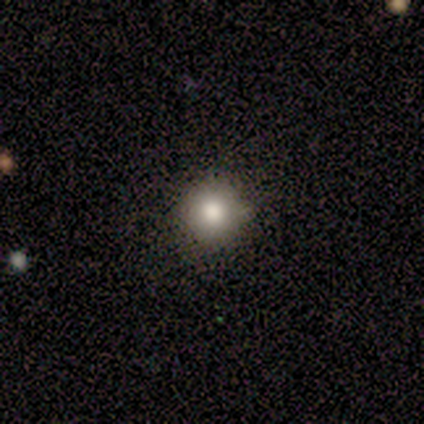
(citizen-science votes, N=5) Morphology: type=smooth (60%); roundness=round (100%); merging=none (67%).